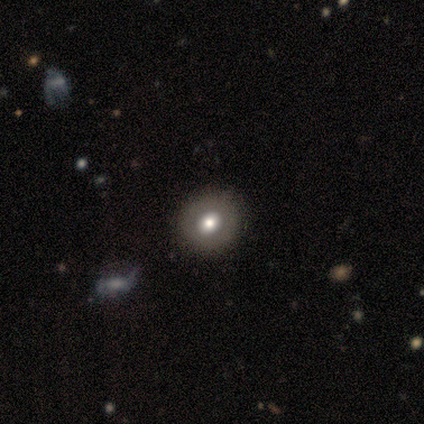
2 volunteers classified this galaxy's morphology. smooth-or-featured: smooth: 50% (tied) | star or artifact: 50% (tied) | featured or disk: 0%
  how-rounded: round: 100% | in between: 0% | cigar-shaped: 0%
  merging: none: 100% | minor disturbance: 0% | major disturbance: 0% | merger: 0%